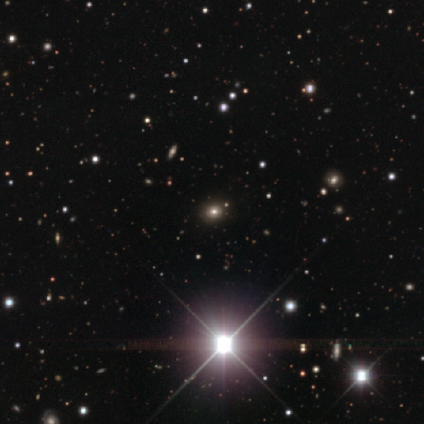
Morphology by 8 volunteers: Smooth or featured: star or artifact — 75% (smooth — 25%)